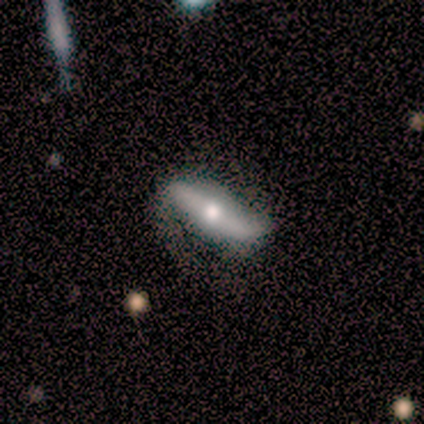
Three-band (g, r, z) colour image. It shows a featured or disk galaxy (100%) with no bar (67%), 2 (100%) loose (67%) spiral arms (100%) and a large central bulge (33%, tied with moderate and small). Merging: none (67%).